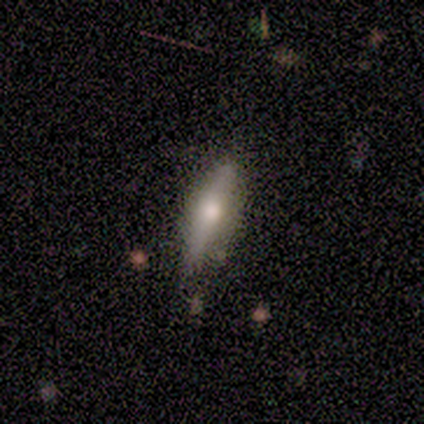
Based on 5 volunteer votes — Smooth or featured? 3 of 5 (60%) said featured or disk. Edge-on disk? 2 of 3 (67%) said yes. Edge-on bulge? 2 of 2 (100%) said rounded. Merging? 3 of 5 (60%) said none.